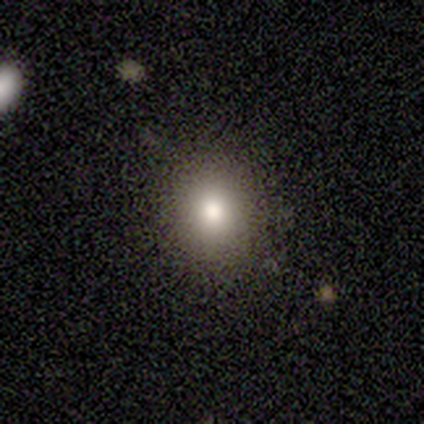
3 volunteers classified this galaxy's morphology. Volunteers were most divided on "smooth or featured" (3-way tie): smooth: 33%, featured or disk: 33%, star or artifact: 33%. More confident: how rounded — in between (100%); merging — none (100%).